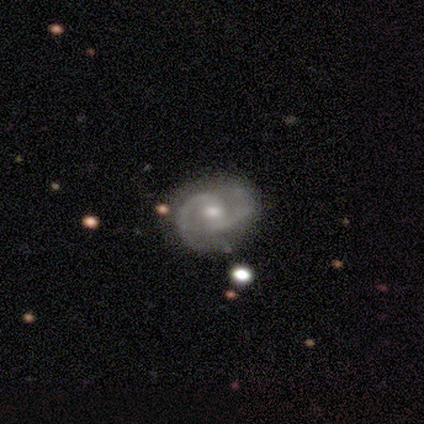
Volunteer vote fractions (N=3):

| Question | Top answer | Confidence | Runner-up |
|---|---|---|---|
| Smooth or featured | featured or disk | 100% | — |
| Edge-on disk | no | 100% | — |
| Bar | weak | 67% | no (33%) |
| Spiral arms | yes | 100% | — |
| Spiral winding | medium | 67% | loose (33%) |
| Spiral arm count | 2 | 100% | — |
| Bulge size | moderate | 67% | small (33%) |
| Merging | none | 67% | minor disturbance (33%) |